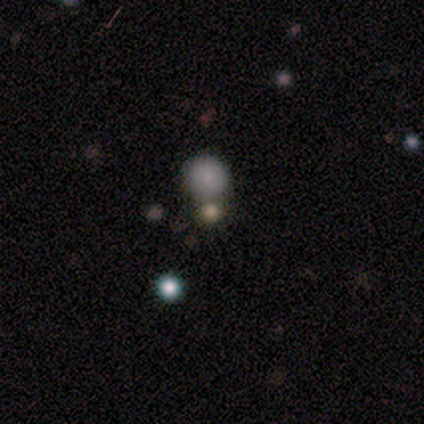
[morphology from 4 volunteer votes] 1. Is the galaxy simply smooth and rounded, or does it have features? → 50% smooth (tied), 50% star or artifact (tied), 0% featured or disk.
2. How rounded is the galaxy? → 100% round, 0% in between, 0% cigar-shaped.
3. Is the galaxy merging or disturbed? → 100% merger, 0% none, 0% minor disturbance, 0% major disturbance.